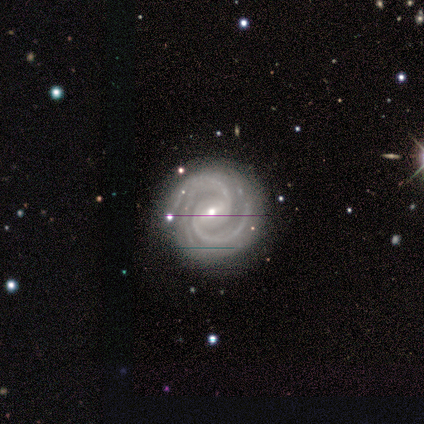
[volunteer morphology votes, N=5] This appears to be a featured or disk galaxy (100%) with a weak bar (80%), 2 (80%) tight (60%) spiral arms (100%) and a moderate central bulge (60%). Merging: none (60%).